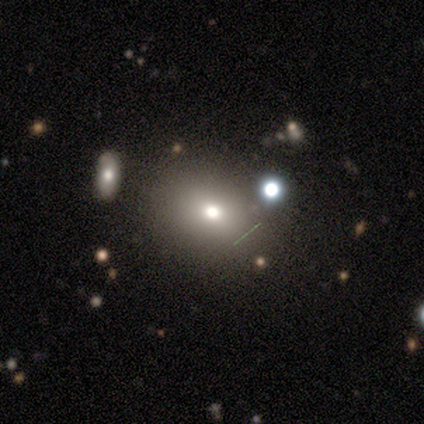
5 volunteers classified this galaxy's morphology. type=smooth (80%); roundness=round (75%); merging=none (100%).